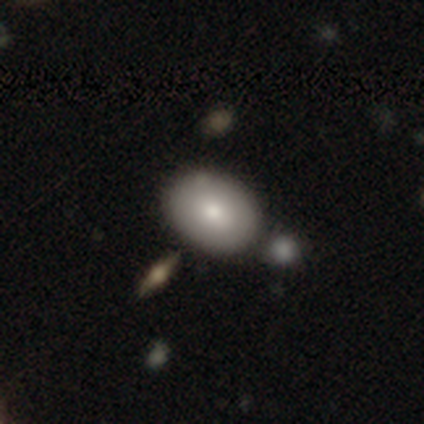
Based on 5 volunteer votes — A smooth galaxy with no disk features (100%) that is in between round and cigar-shaped (60%).

Vote fractions:
- Smooth or featured? smooth: 100% / featured or disk: 0% / star or artifact: 0%
- How rounded? in between: 60% / round: 20% / cigar-shaped: 20%
- Merging? none: 80% / minor disturbance: 20% / major disturbance: 0% / merger: 0%